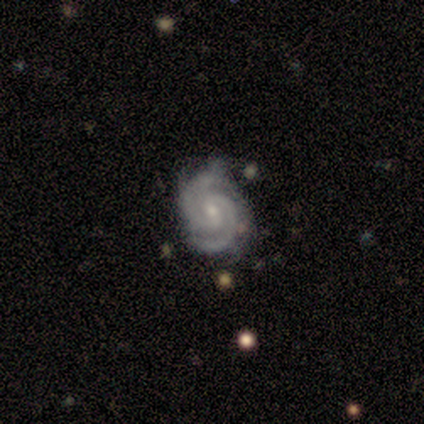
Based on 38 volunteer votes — Morphology: type=featured or disk (89%); edge-on=no (94%); bar=weak (59%); spiral arms=yes (100%); winding=tight (84%); arm count=2 (91%); bulge=small (59%); merging=none (69%).